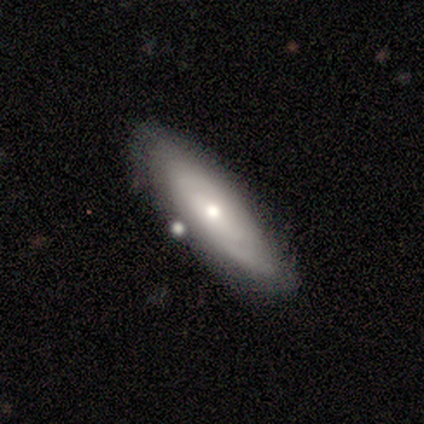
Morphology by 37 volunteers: Smooth or featured: featured or disk — 57% (smooth — 35%)
Edge-on disk: no — 62% (yes — 38%)
Bar: no — 85% (weak — 15%)
Spiral arms: yes — 69% (no — 31%)
Spiral winding: tight — 67% (medium — 33%)
Spiral arm count: can't tell — 89% (3 — 11%)
Bulge size: moderate — 62% (small — 38%)
Merging: none — 71% (minor disturbance — 15%)